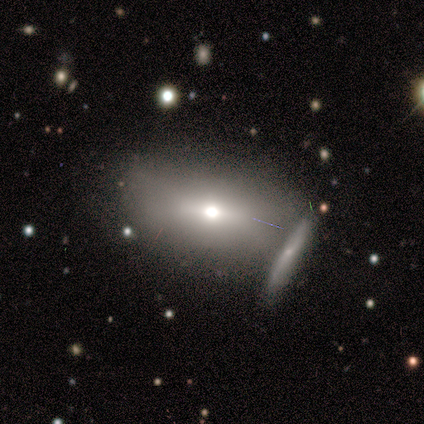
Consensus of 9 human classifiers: smooth-or-featured: smooth: 56% | featured or disk: 22% | star or artifact: 22%
  how-rounded: in between: 100% | round: 0% | cigar-shaped: 0%
  merging: none: 57% | minor disturbance: 29% | merger: 14% | major disturbance: 0%